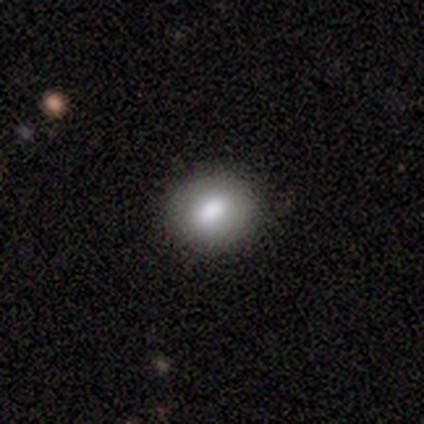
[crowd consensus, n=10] smooth_or_featured: smooth (p=0.90) [alt: featured or disk p=0.10]
how_rounded: round (p=0.78) [alt: in between p=0.22]
merging: none (p=0.80) [alt: minor disturbance p=0.20]